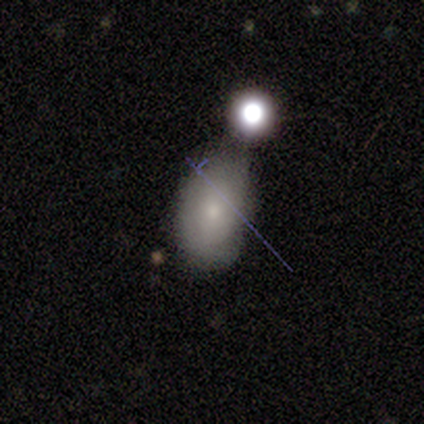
smooth 100%, featured or disk 0%, star or artifact 0%. Down the decision tree: how rounded — in between (86%); merging — minor disturbance (43%).